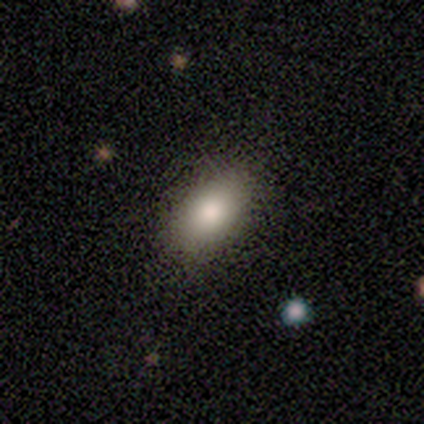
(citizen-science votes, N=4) This is clearly a smooth galaxy (100%). How rounded: clearly in between (100%). Merging: clearly none (100%).